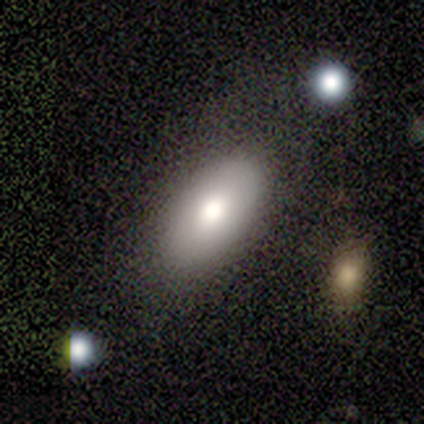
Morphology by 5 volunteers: smooth-or-featured: smooth: 80% | featured or disk: 20% | star or artifact: 0%
  how-rounded: in between: 100% | round: 0% | cigar-shaped: 0%
  merging: none: 100% | minor disturbance: 0% | major disturbance: 0% | merger: 0%